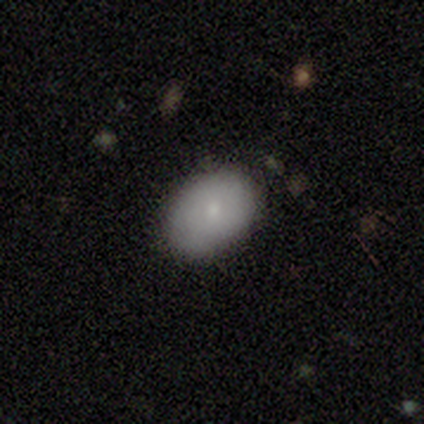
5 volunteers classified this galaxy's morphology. This is clearly a smooth galaxy (100%). How rounded: marginally round (40%, tied with in between). Merging: clearly none (80%).